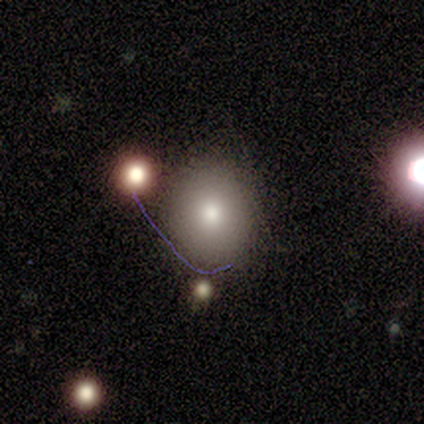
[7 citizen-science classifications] Smooth or featured?
  - smooth: 71% *
  - featured or disk: 14%
  - star or artifact: 14%
How rounded?
  - round: 60% *
  - in between: 40%
  - cigar-shaped: 0%
Merging?
  - none: 83% *
  - minor disturbance: 17%
  - major disturbance: 0%
  - merger: 0%